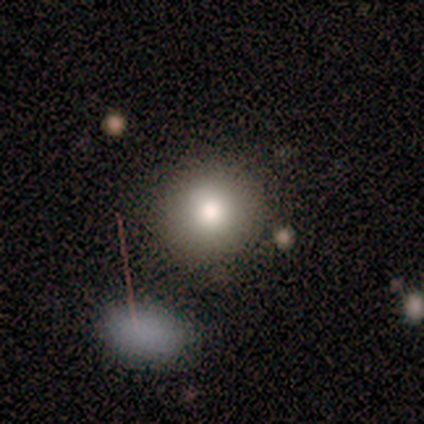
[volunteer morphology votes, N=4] Overall: smooth (100%). How rounded: round (100%). Merging: none (100%).